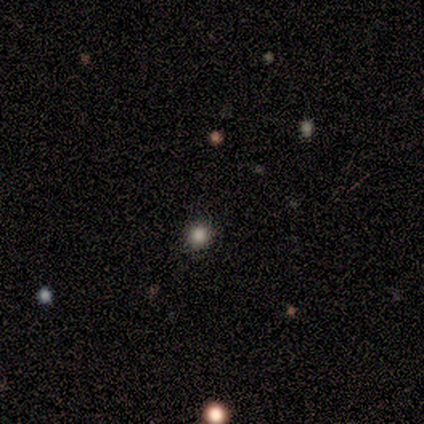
A smooth galaxy with no disk features (80%) that is round (75%).

Vote fractions:
- Smooth or featured? smooth: 80% / star or artifact: 20% / featured or disk: 0%
- How rounded? round: 75% / in between: 25% / cigar-shaped: 0%
- Merging? none: 75% / major disturbance: 25% / minor disturbance: 0% / merger: 0%